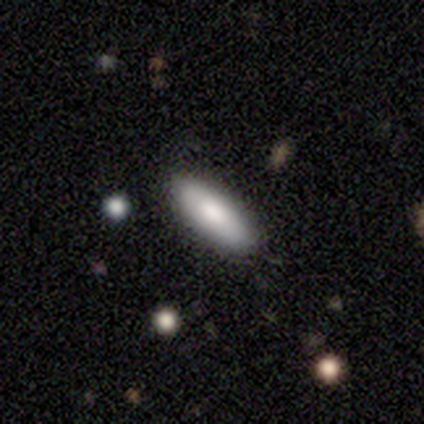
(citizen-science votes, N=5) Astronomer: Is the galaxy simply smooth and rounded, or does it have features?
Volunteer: smooth — 80%.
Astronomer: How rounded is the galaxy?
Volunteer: in between — 75%.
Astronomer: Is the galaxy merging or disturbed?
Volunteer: none — 100%.